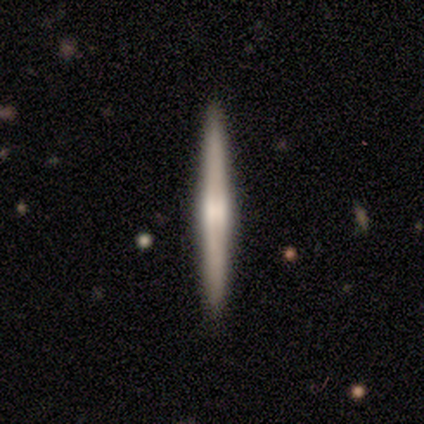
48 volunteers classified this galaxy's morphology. This appears to be a featured or disk galaxy (67%) viewed edge-on (97%) with a rounded central bulge (55%). Merging: none (91%).